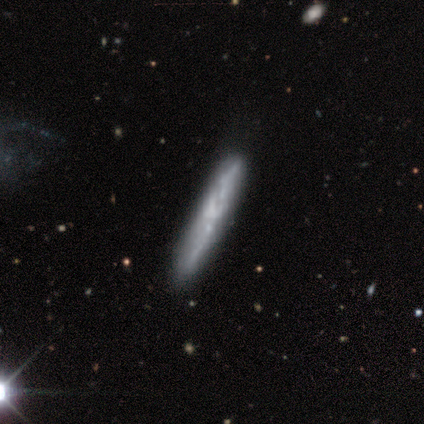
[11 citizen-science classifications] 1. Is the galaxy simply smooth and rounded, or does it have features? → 55% smooth, 45% featured or disk, 0% star or artifact.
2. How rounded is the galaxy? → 100% cigar-shaped, 0% round, 0% in between.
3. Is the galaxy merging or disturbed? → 55% none, 36% minor disturbance, 9% major disturbance, 0% merger.